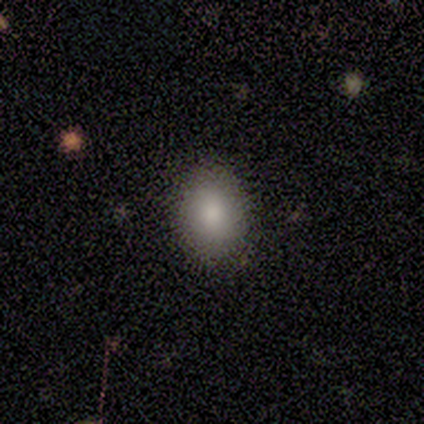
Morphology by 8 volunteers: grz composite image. It shows a smooth galaxy with no disk features (100%) that is round (50%, tied with in between). Merging: none (88%).